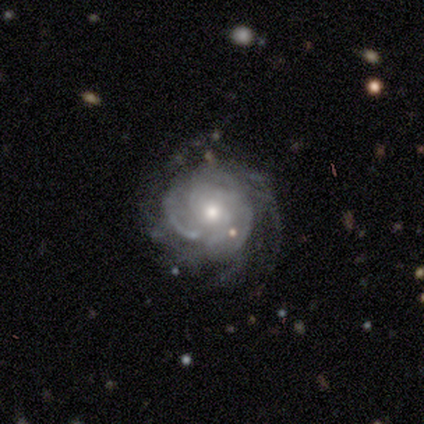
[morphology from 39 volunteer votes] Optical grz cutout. It shows a featured or disk galaxy (82%) with no bar (80%), tight (52%) spiral arms (97%) and a moderate central bulge (67%). Merging: none (63%).